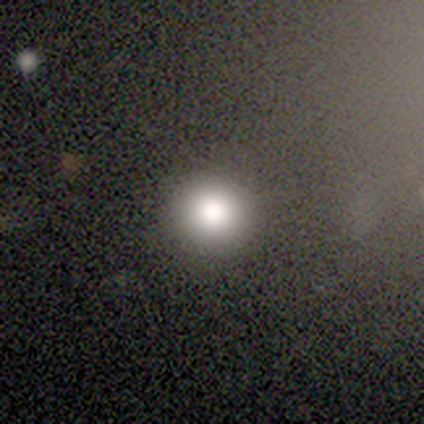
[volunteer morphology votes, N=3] type=featured or disk (67%); edge-on=no (100%); bar=no (100%); spiral arms=no (100%); bulge=large (50%, tied with moderate); merging=none (100%).